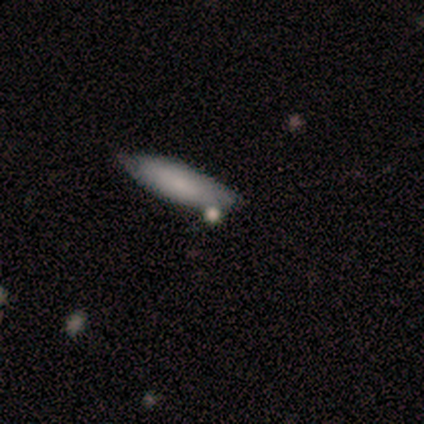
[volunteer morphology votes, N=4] smooth_or_featured: smooth (p=0.50) [alt: featured or disk p=0.25]
how_rounded: in between (p=1.00)
merging: none (p=1.00)